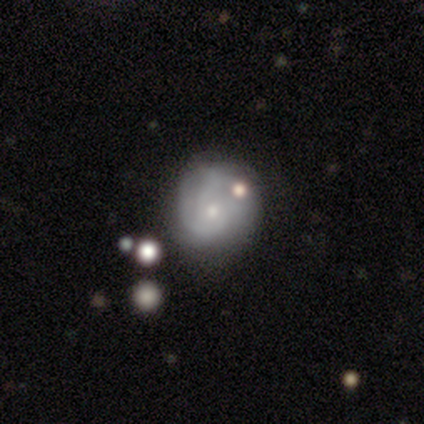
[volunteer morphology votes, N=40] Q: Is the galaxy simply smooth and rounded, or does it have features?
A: featured or disk — 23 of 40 (57%).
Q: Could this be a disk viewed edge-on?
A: no — 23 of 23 (100%).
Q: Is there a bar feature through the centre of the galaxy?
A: no — 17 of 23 (74%).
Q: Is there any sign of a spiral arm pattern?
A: yes — 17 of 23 (74%).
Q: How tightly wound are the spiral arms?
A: tight — 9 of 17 (53%).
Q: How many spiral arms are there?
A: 2 — 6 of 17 (35%).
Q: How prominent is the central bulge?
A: small — 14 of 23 (61%).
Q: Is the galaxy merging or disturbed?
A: none — 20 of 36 (56%).